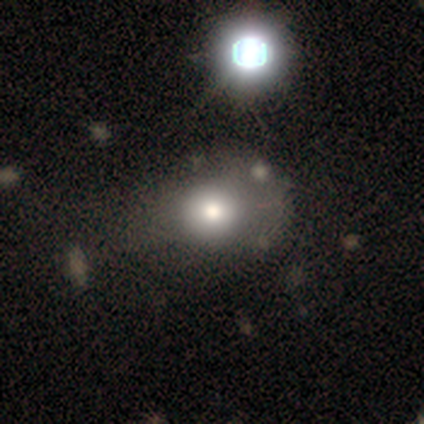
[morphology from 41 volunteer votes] Volunteers were most divided on "merging": none: 34%, minor disturbance: 17%, major disturbance: 11%, merger: 3%. More confident: smooth or featured — smooth (73%); how rounded — round (67%).